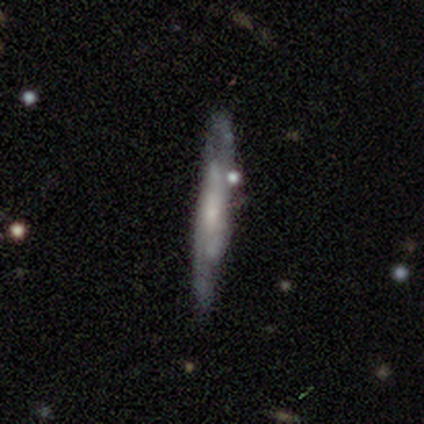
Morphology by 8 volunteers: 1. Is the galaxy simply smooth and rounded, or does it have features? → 75% featured or disk, 25% smooth, 0% star or artifact.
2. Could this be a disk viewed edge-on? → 67% no, 33% yes.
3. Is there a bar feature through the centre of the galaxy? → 75% no, 25% weak, 0% strong.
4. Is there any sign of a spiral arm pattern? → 100% yes, 0% no.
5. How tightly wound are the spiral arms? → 50% medium, 25% tight, 25% loose.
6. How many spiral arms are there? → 100% can't tell, 0% 1, 0% 2, 0% 3, 0% 4, 0% more than 4.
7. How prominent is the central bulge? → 50% small, 25% moderate, 25% none, 0% dominant, 0% large.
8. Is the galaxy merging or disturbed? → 50% none (tied), 50% minor disturbance (tied), 0% major disturbance, 0% merger.